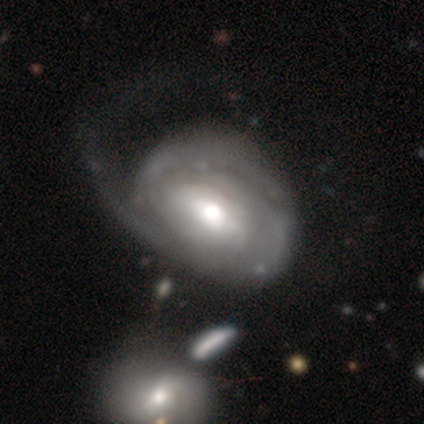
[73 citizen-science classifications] Smooth or featured: featured or disk — 81% (smooth — 15%)
Edge-on disk: no — 100%
Bar: no — 51% (weak — 39%)
Spiral arms: yes — 78% (no — 22%)
Spiral winding: tight — 72% (medium — 24%)
Spiral arm count: can't tell — 61% (2 — 20%)
Bulge size: moderate — 64% (large — 25%)
Merging: major disturbance — 53% (minor disturbance — 19%)